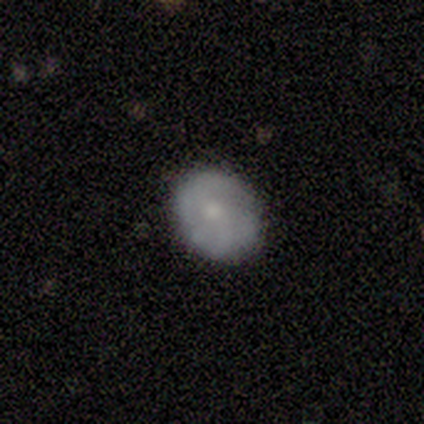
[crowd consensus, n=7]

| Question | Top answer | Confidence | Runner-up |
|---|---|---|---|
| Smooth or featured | smooth | 43% | tied: star or artifact (43%) |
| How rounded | round | 67% | in between (33%) |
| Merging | none | 75% | minor disturbance (25%) |